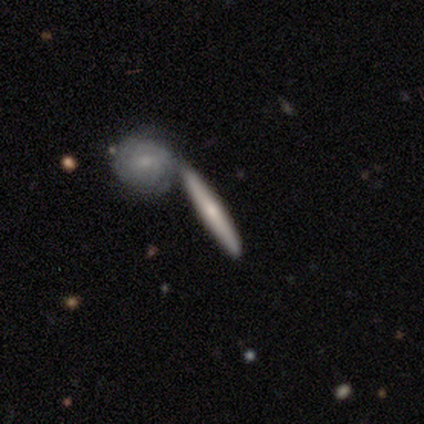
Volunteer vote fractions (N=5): Smooth or featured? 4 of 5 (80%) said featured or disk. Edge-on disk? 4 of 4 (100%) said yes. Edge-on bulge? 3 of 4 (75%) said rounded. Merging? 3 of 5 (60%) said merger.